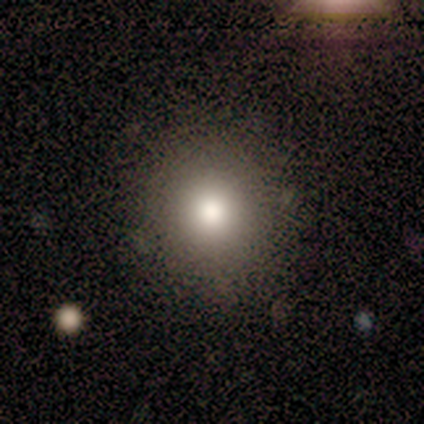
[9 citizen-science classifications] Smooth or featured: smooth — 89% (star or artifact — 11%)
How rounded: round — 88% (in between — 12%)
Merging: none — 75% (minor disturbance — 25%)